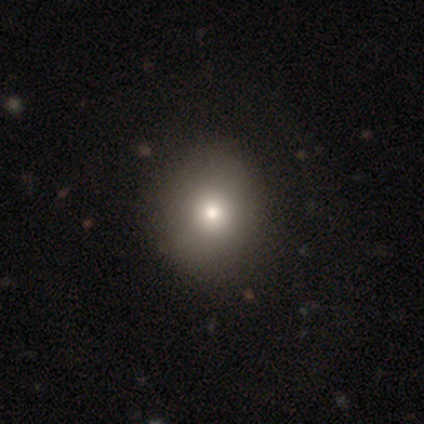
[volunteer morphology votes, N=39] type=smooth (77%); roundness=round (83%); merging=none (92%).